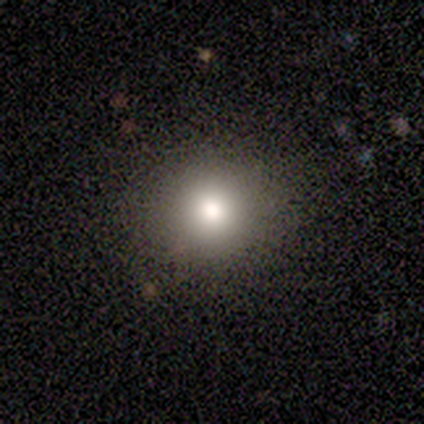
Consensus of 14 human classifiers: Volunteers were most divided on "smooth or featured": smooth: 86%, star or artifact: 14%, featured or disk: 0%. More confident: how rounded — round (100%); merging — none (83%).